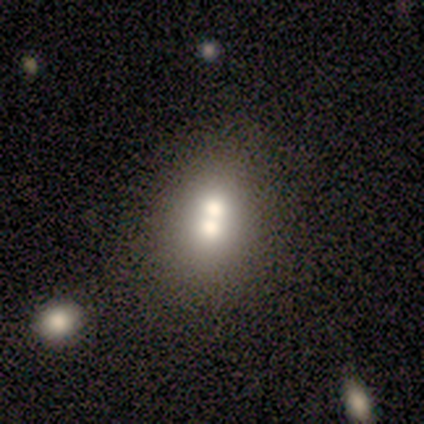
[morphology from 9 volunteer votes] This appears to be a smooth galaxy with no disk features (78%) that is in between round and cigar-shaped (100%). Merging: merger (56%).